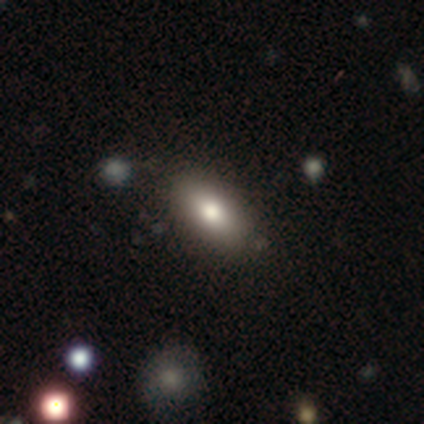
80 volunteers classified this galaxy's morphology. Smooth or featured: smooth — 86% (featured or disk — 11%)
How rounded: in between — 90% (cigar-shaped — 9%)
Merging: none — 42% (minor disturbance — 5%)